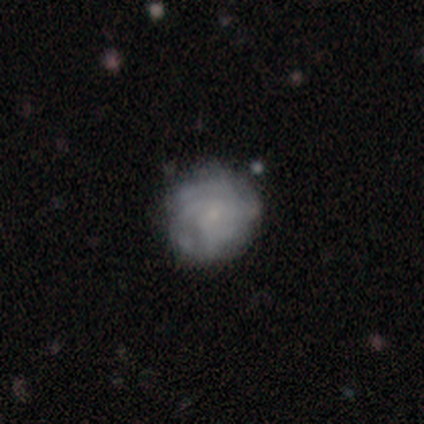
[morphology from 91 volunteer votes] type=featured or disk (60%); edge-on=no (100%); bar=no (82%); spiral arms=yes (75%); winding=tight (66%); arm count=can't tell (68%); bulge=small (65%); merging=none (69%).